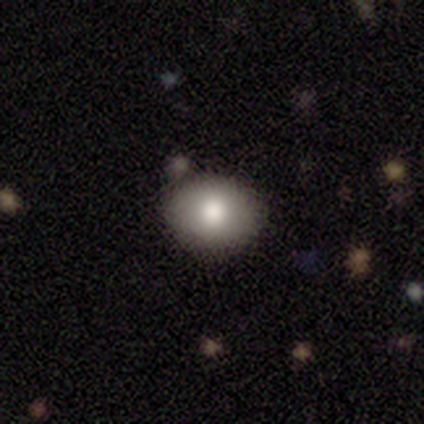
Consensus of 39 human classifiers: A smooth galaxy with no disk features (95%) that is in between round and cigar-shaped (68%). Merging: none (67%).